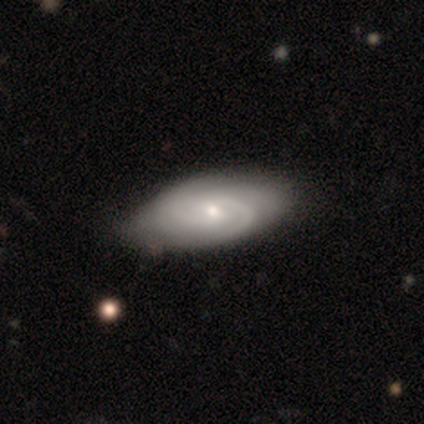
Morphology: type=featured or disk (84%); edge-on=no (100%); bar=weak (59%); spiral arms=yes (100%); winding=tight (53%); arm count=2 (53%); bulge=small (59%); merging=none (64%).